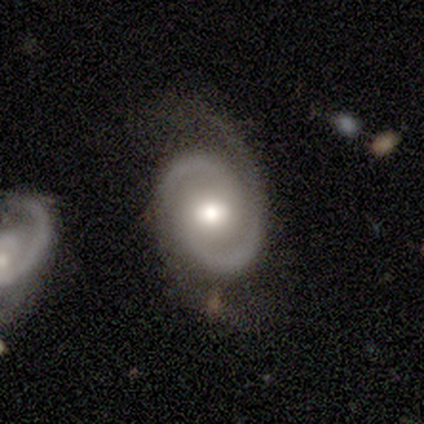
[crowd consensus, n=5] Q: Smooth or featured?
A: featured or disk (100%)
Q: Edge-on disk?
A: no (60%); runner-up: yes (40%)
Q: Bar?
A: weak (67%); runner-up: strong (33%)
Q: Spiral arms?
A: yes (100%)
Q: Spiral winding?
A: medium (100%)
Q: Spiral arm count?
A: 2 (100%)
Q: Bulge size?
A: moderate (100%)
Q: Merging?
A: none (60%); runner-up: minor disturbance (20%)